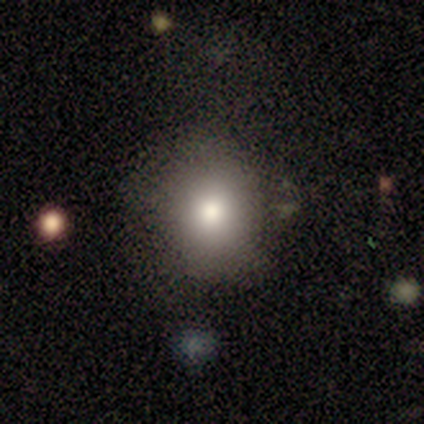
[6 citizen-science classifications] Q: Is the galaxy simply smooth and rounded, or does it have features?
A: smooth — 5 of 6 (83%).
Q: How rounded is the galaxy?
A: round — 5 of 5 (100%).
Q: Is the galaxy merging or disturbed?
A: none — 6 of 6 (100%).